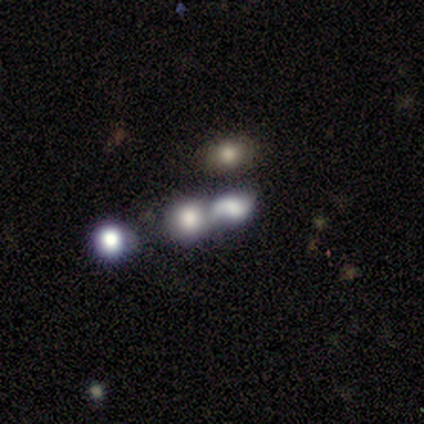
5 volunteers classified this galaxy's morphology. Smooth or featured? smooth (60%)
How rounded? in between (67%)
Merging? merger (67%)